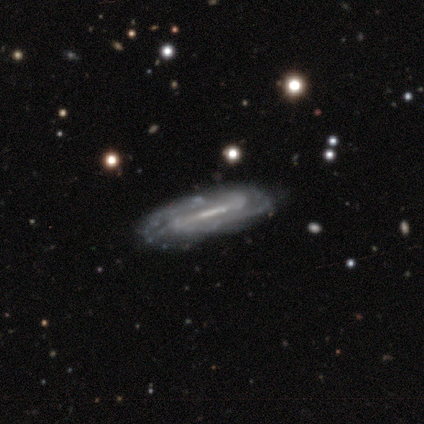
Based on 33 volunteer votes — Smooth or featured?
  - featured or disk: 85% *
  - smooth: 9%
  - star or artifact: 6%
Edge-on disk?
  - no: 71% *
  - yes: 29%
Bar?
  - strong: 75% *
  - weak: 25%
  - no: 0%
Spiral arms?
  - yes: 95% *
  - no: 5%
Spiral winding?
  - tight: 53% *
  - medium: 37%
  - loose: 11%
Spiral arm count?
  - 2: 58% *
  - can't tell: 26%
  - 3: 5%
  - 4: 5%
  - more than 4: 5%
  - 1: 0%
Bulge size?
  - none: 50% *
  - moderate: 25%
  - small: 20%
  - large: 5%
  - dominant: 0%
Merging?
  - none: 81% *
  - minor disturbance: 16%
  - merger: 3%
  - major disturbance: 0%